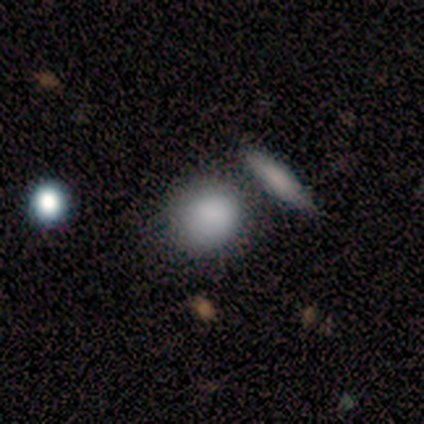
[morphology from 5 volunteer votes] smooth 60%, star or artifact 40%, featured or disk 0%. Down the decision tree: how rounded — in between (67%); merging — none (67%).